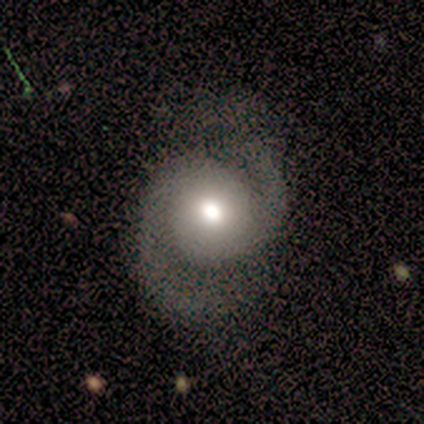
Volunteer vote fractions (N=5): Smooth or featured? 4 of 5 (80%) said featured or disk. Edge-on disk? 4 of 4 (100%) said no. Bar? 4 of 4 (100%) said no. Spiral arms? 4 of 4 (100%) said yes. Spiral winding? 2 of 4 (50%) said medium. Spiral arm count? 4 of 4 (100%) said 2. Bulge size? 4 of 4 (100%) said moderate. Merging? 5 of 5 (100%) said none.